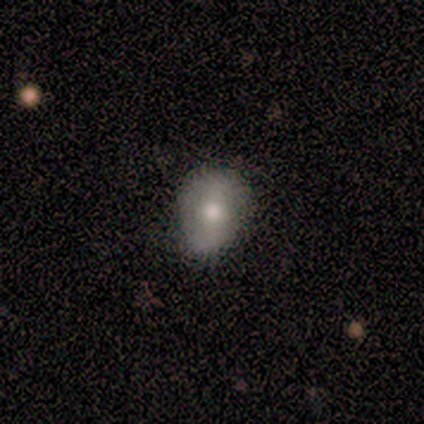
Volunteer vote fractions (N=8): This is likely a smooth galaxy (62%). How rounded: clearly in between (80%). Merging: clearly none (88%).